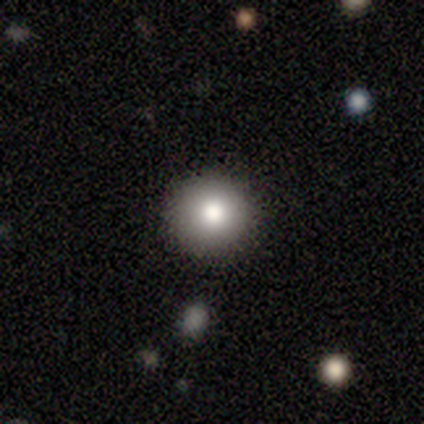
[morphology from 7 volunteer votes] Smooth or featured?
  - smooth: 71% *
  - featured or disk: 14%
  - star or artifact: 14%
How rounded?
  - round: 100% *
  - in between: 0%
  - cigar-shaped: 0%
Merging?
  - none: 100% *
  - minor disturbance: 0%
  - major disturbance: 0%
  - merger: 0%